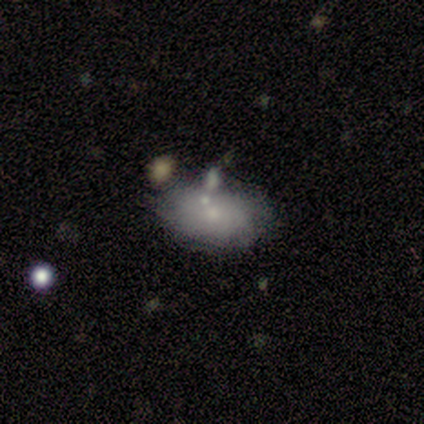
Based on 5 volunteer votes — featured or disk 60%, smooth 40%, star or artifact 0%. Down the decision tree: edge-on disk — no (100%); bar — no (67%); spiral arms — no (100%); bulge size — small (67%); merging — none (80%).